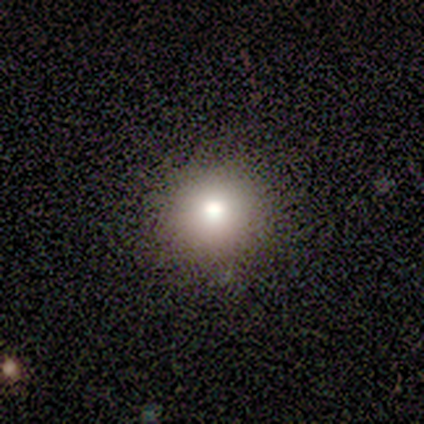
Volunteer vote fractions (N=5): This appears to be a smooth galaxy with no disk features (60%) that is round (100%). Merging: none (100%).